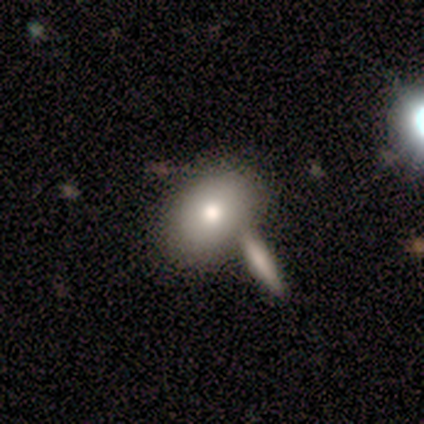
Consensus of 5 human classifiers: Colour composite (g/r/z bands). It shows a smooth galaxy with no disk features (80%) that is in between round and cigar-shaped (75%). Merging: merger (60%).